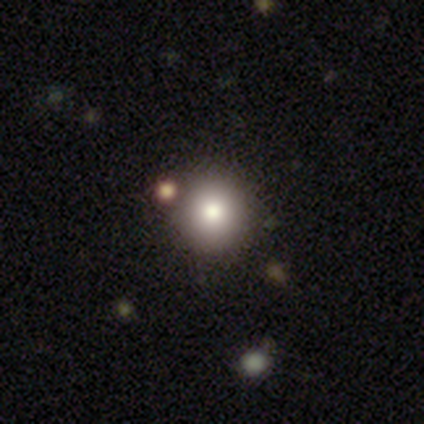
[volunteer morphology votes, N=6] This appears to be a smooth galaxy with no disk features (67%) that is round (100%). Merging: none (100%).